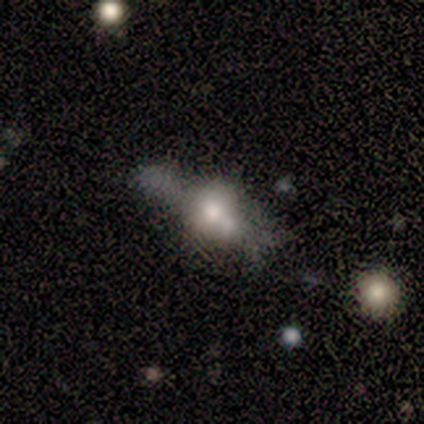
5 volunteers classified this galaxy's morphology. Smooth or featured: featured or disk — 60% (smooth — 40%)
Edge-on disk: yes — 67% (no — 33%)
Edge-on bulge: rounded — 100%
Merging: none — 80% (merger — 20%)